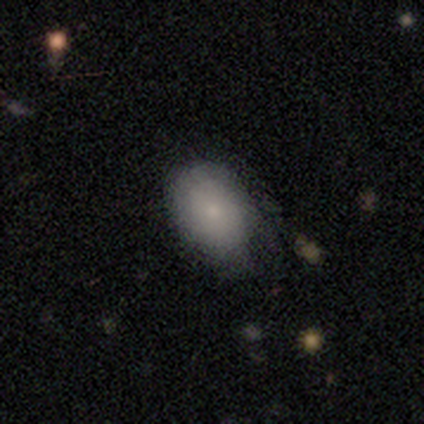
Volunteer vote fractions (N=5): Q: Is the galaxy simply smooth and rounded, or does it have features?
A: smooth — 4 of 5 (80%).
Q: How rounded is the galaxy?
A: round — 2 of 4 (50%, tied with in between).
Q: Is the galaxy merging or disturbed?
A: none — 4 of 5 (80%).